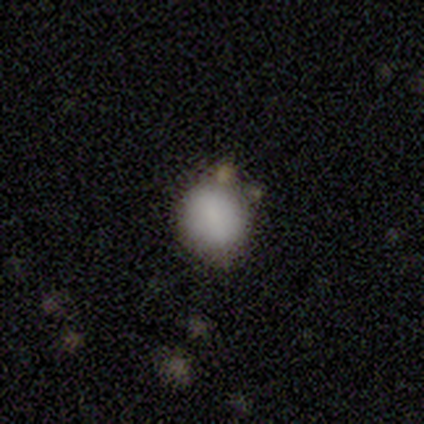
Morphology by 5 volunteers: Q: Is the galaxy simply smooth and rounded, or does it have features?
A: smooth — 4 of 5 (80%).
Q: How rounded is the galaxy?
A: round — 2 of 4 (50%, tied with in between).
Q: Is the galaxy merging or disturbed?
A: none — 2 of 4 (50%, tied with minor disturbance).